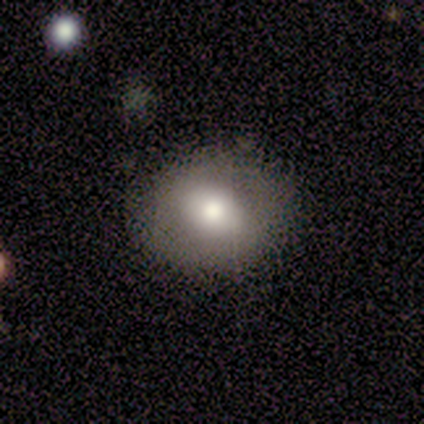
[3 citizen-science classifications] A smooth galaxy with no disk features (67%) that is round (50%, tied with in between). Merging: none (67%).